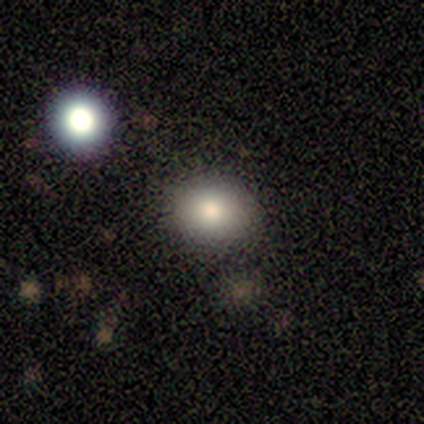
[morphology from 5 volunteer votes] smooth 100%, featured or disk 0%, star or artifact 0%. Down the decision tree: how rounded — round (60%); merging — none (100%).